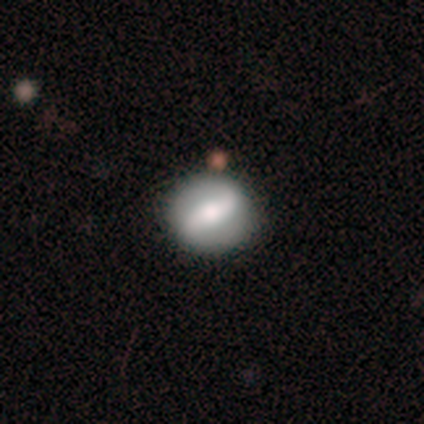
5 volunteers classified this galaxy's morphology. Q: Smooth or featured?
A: featured or disk (80%); runner-up: smooth (20%)
Q: Edge-on disk?
A: no (75%); runner-up: yes (25%)
Q: Bar?
A: strong (100%)
Q: Spiral arms?
A: no (67%); runner-up: yes (33%)
Q: Bulge size?
A: large (67%); runner-up: small (33%)
Q: Merging?
A: none (80%); runner-up: minor disturbance (20%)